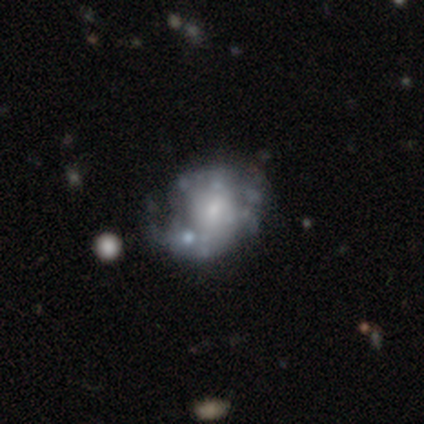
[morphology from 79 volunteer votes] Q: Smooth or featured?
A: featured or disk (77%); runner-up: smooth (18%)
Q: Edge-on disk?
A: no (100%)
Q: Bar?
A: no (80%); runner-up: weak (18%)
Q: Spiral arms?
A: no (72%); runner-up: yes (28%)
Q: Bulge size?
A: small (43%); runner-up: moderate (31%)
Q: Merging?
A: minor disturbance (28%); runner-up: none (19%)